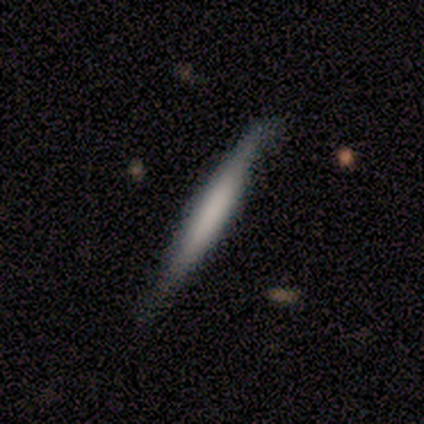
featured or disk 80%, smooth 20%, star or artifact 0%. Down the decision tree: edge-on disk — yes (75%); edge-on bulge — none (67%); merging — none (80%).